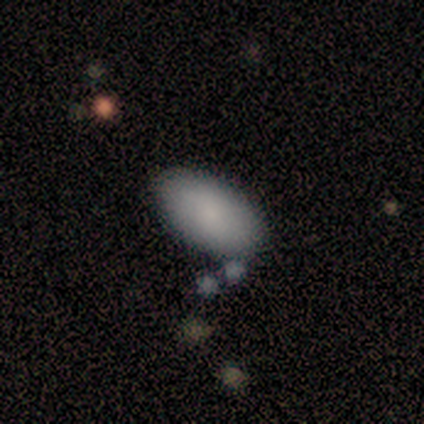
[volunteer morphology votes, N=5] smooth_or_featured: smooth (p=0.80) [alt: star or artifact p=0.20]
how_rounded: in between (p=1.00)
merging: none (p=0.75) [alt: minor disturbance p=0.25]